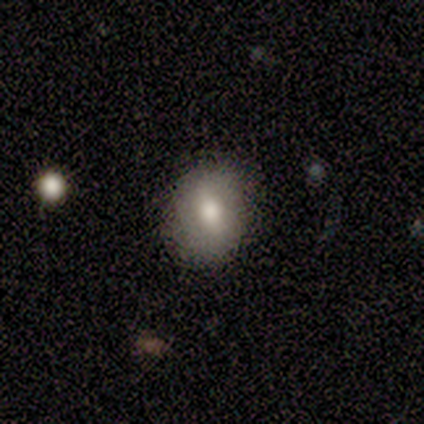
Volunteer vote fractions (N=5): This appears to be a smooth galaxy with no disk features (80%) that is round (50%, tied with in between). Merging: none (80%).